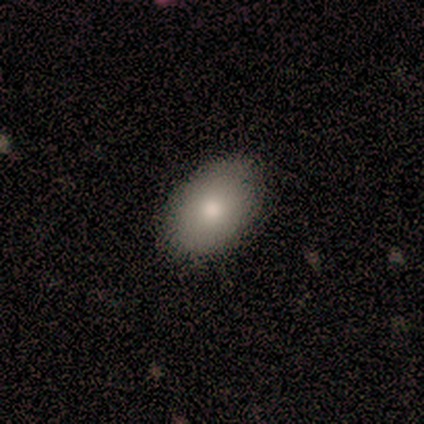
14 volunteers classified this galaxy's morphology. smooth_or_featured: smooth (p=0.57) [alt: featured or disk p=0.29]
how_rounded: in between (p=0.88) [alt: round p=0.12]
merging: none (p=0.75) [alt: minor disturbance p=0.25]